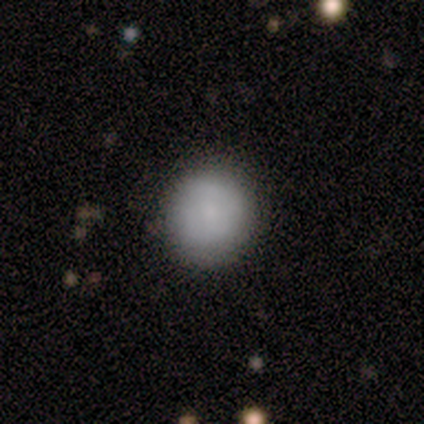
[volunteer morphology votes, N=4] type=smooth (50%, tied with star or artifact); roundness=round (100%); merging=none (100%).